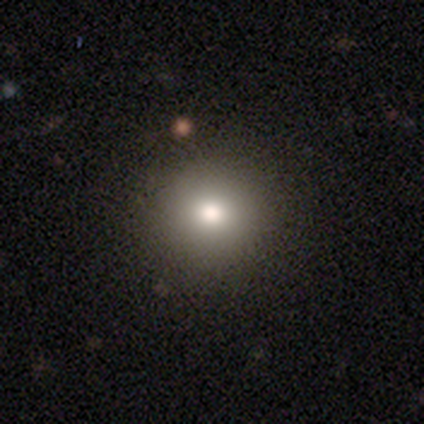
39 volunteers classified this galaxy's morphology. Volunteers were most divided on "smooth or featured": smooth: 79%, featured or disk: 10%, star or artifact: 10%. More confident: how rounded — round (94%); merging — none (86%).